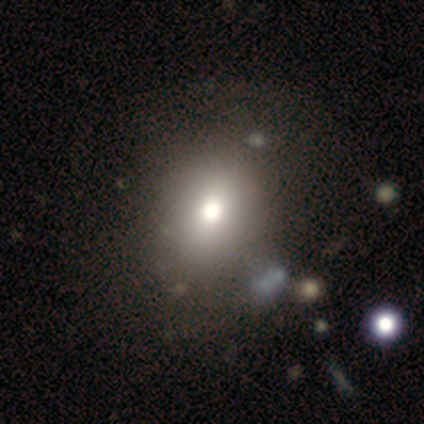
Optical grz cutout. It shows a smooth galaxy with no disk features (100%) that is round (60%). Merging: none (40%, tied with minor disturbance).